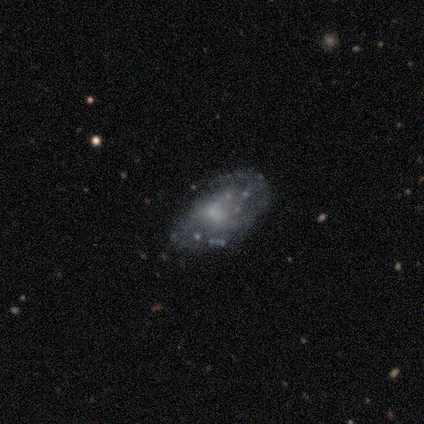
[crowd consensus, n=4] Morphology: type=smooth (50%); roundness=in between (100%); merging=minor disturbance (67%).